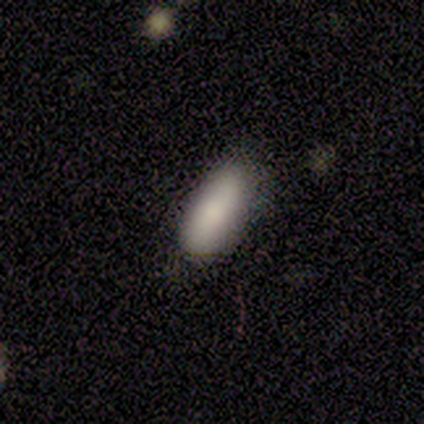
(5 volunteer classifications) Smooth or featured: smooth — 100%
How rounded: in between — 100%
Merging: minor disturbance — 60% (none — 40%)